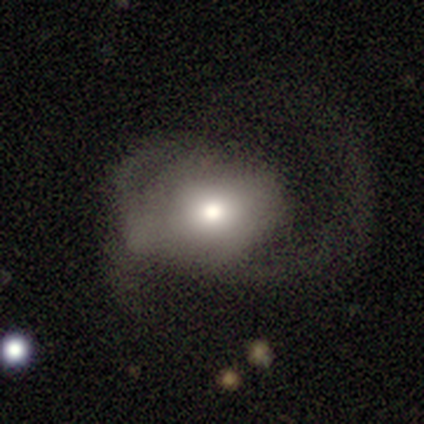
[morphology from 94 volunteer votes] Smooth or featured?
  - featured or disk: 48% *
  - smooth: 43%
  - star or artifact: 10%
Edge-on disk?
  - no: 96% *
  - yes: 4%
Bar?
  - no: 56% *
  - weak: 33%
  - strong: 12%
Spiral arms?
  - yes: 70% *
  - no: 30%
Spiral winding?
  - loose: 53% *
  - medium: 43%
  - tight: 3%
Spiral arm count?
  - 2: 50% *
  - 1: 23%
  - 3: 17%
  - can't tell: 10%
  - 4: 0%
  - more than 4: 0%
Bulge size?
  - moderate: 67% *
  - large: 23%
  - small: 7%
  - dominant: 2%
  - none: 0%
Merging?
  - major disturbance: 61% *
  - none: 20%
  - minor disturbance: 15%
  - merger: 4%